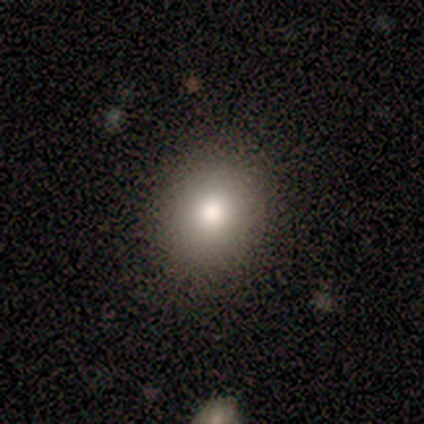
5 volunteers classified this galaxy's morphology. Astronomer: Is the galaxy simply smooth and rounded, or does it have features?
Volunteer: smooth — 80%.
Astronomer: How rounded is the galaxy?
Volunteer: round — 75%.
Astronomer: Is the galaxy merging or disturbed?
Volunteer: none — 100%.